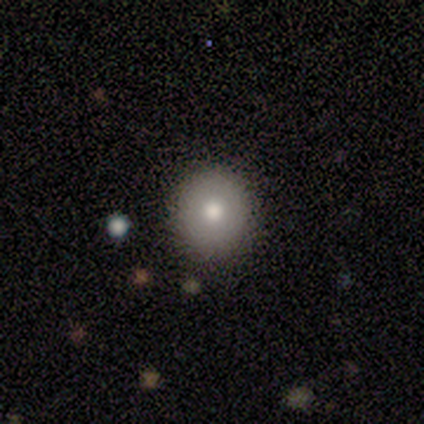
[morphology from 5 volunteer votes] This appears to be a smooth galaxy with no disk features (80%) that is round (100%). Merging: none (100%).